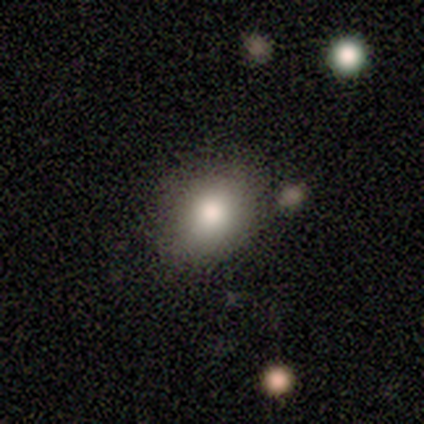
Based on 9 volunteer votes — Morphology: type=smooth (67%); roundness=round (50%, tied with in between); merging=none (100%).